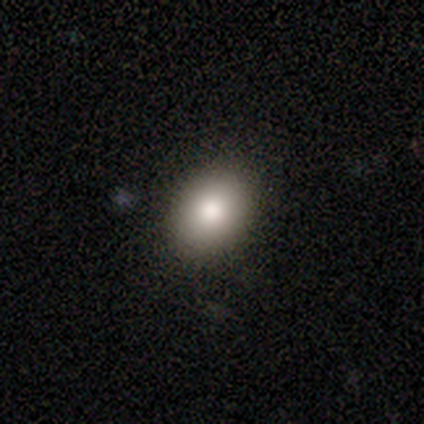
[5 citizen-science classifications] smooth_or_featured: smooth (p=0.60) [alt: featured or disk p=0.20]
how_rounded: in between (p=0.67) [alt: round p=0.33]
merging: none (p=1.00)